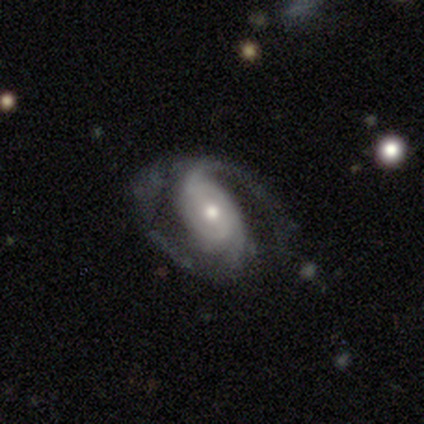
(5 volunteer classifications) Overall: featured or disk (100%). Edge-on disk: no (100%). Bar: strong (40%, tied with no). Spiral arms: yes (100%). Spiral arm count: 2 (40%, tied with 3). Spiral winding: tight (40%, tied with medium). Bulge size: moderate (60%; small 40%). Merging: none (60%; minor disturbance 20%).